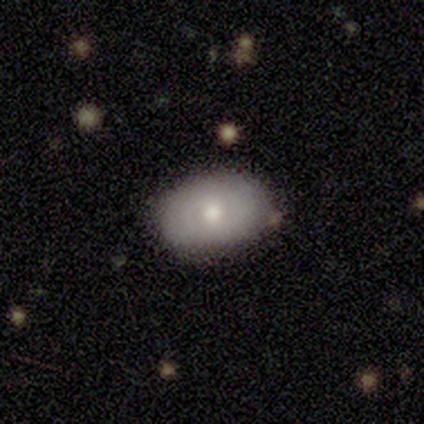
Smooth or featured? 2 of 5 (40%, tied with featured or disk) said smooth. How rounded? 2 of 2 (100%) said in between. Merging? 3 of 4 (75%) said none.